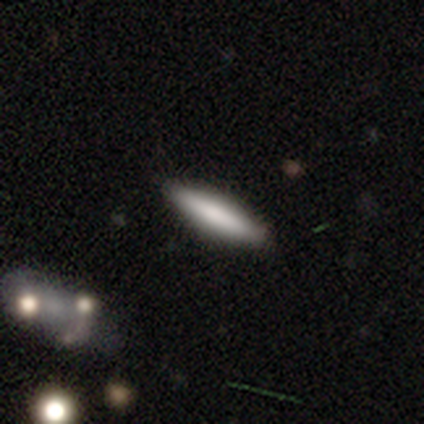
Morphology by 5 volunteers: A smooth galaxy with no disk features (100%) that is cigar-shaped (80%).

Vote fractions:
- Smooth or featured? smooth: 100% / featured or disk: 0% / star or artifact: 0%
- How rounded? cigar-shaped: 80% / in between: 20% / round: 0%
- Merging? none: 80% / minor disturbance: 20% / major disturbance: 0% / merger: 0%